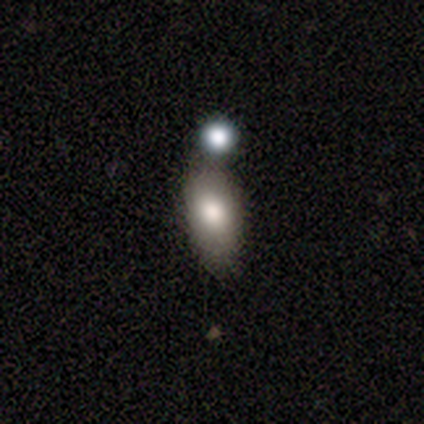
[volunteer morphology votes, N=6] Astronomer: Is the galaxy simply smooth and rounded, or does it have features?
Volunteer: smooth — 67%.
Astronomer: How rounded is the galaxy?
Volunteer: in between — 100%.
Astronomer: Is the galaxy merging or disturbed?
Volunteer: merger — 60% (runner-up: minor disturbance, 40%).